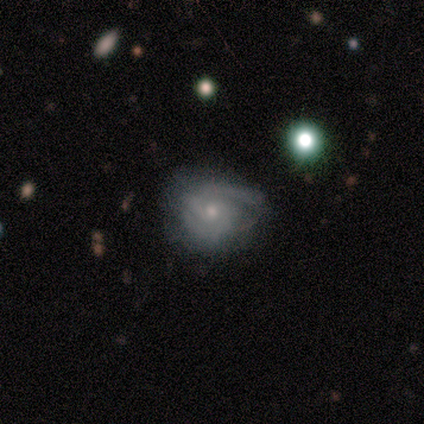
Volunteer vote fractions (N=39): smooth-or-featured: featured or disk: 69% | smooth: 28% | star or artifact: 3%
  disk-edge-on: no: 100% | yes: 0%
    bar: no: 70% | weak: 22% | strong: 7%
    has-spiral-arms: yes: 89% | no: 11%
      spiral-winding: tight: 58% | medium: 29% | loose: 12%
      spiral-arm-count: 2: 58% | can't tell: 21% | 3: 12% | 1: 8% | 4: 0% | more than 4: 0%
    bulge-size: small: 85% | moderate: 11% | large: 4% | dominant: 0% | none: 0%
  merging: none: 45% | minor disturbance: 34% | major disturbance: 21% | merger: 0%